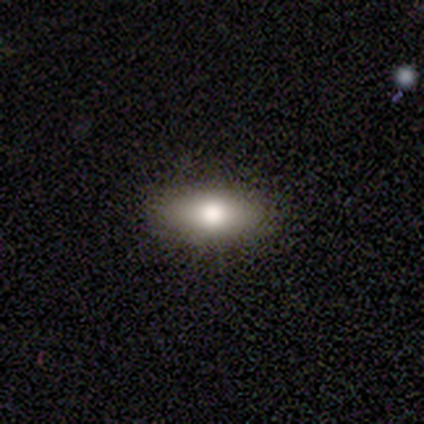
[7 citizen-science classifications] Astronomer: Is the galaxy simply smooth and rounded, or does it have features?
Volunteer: smooth — 100%.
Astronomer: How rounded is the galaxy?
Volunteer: in between — 100%.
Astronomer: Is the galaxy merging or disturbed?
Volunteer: none — 100%.